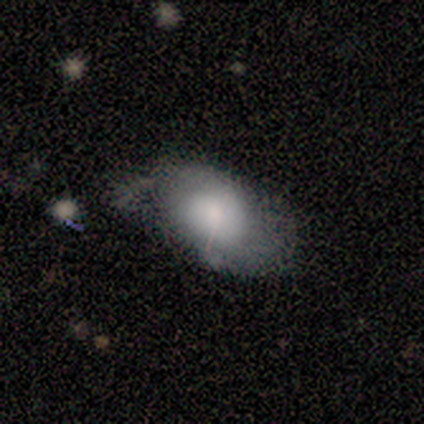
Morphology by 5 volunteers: Smooth or featured: featured or disk — 40% (tied with star or artifact — 40%)
Edge-on disk: no — 100%
Bar: weak — 100%
Spiral arms: yes — 100%
Spiral winding: tight — 50% (tied with medium — 50%)
Spiral arm count: 2 — 100%
Bulge size: large — 50% (tied with none — 50%)
Merging: minor disturbance — 100%